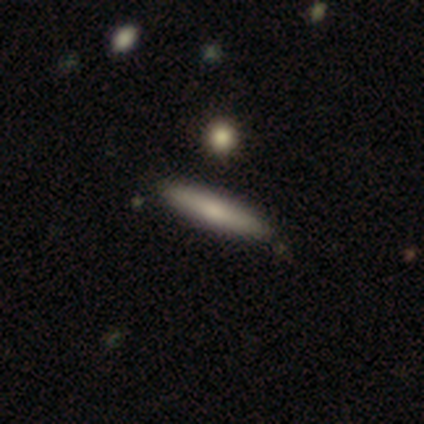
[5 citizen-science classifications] Morphology: type=featured or disk (40%, tied with star or artifact); edge-on=yes (100%); edge-on bulge=none (50%, tied with rounded); merging=none (100%).